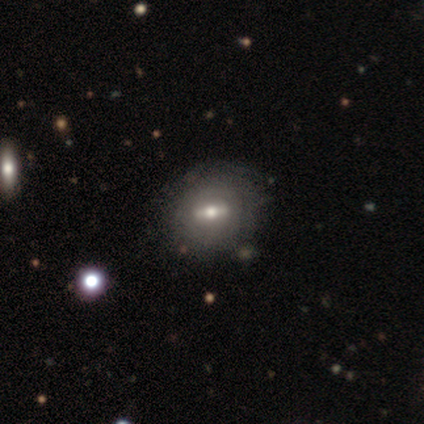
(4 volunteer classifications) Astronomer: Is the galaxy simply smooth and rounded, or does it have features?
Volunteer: featured or disk — 100%.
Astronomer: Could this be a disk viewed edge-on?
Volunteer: no — 75%.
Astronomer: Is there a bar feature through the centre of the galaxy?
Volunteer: strong — 100%.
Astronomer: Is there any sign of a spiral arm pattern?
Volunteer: no — 100%.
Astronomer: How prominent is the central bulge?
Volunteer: small — 67%.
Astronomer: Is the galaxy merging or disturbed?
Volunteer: minor disturbance — 75%.